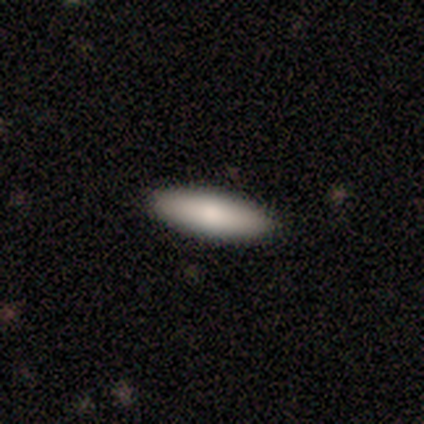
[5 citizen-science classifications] Volunteers were most divided on "how rounded": in between: 60%, cigar-shaped: 40%, round: 0%. More confident: smooth or featured — smooth (100%); merging — none (100%).